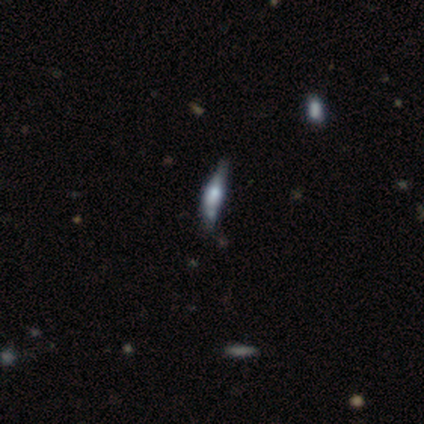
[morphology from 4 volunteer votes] Overall: featured or disk (75%). Edge-on disk: yes (100%). Edge-on bulge: rounded (100%). Merging: merger (50%; none 25%).